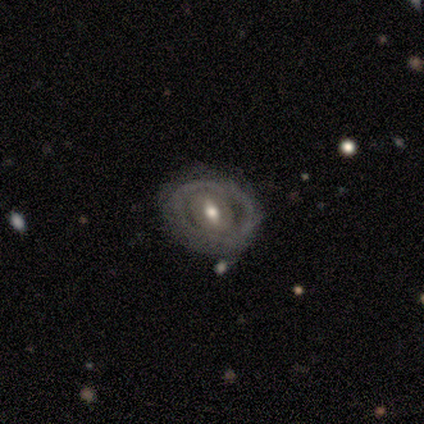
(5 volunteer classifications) Smooth or featured: featured or disk — 80% (smooth — 20%)
Edge-on disk: no — 75% (yes — 25%)
Bar: weak — 67% (no — 33%)
Spiral arms: no — 100%
Bulge size: moderate — 67% (small — 33%)
Merging: none — 80% (minor disturbance — 20%)